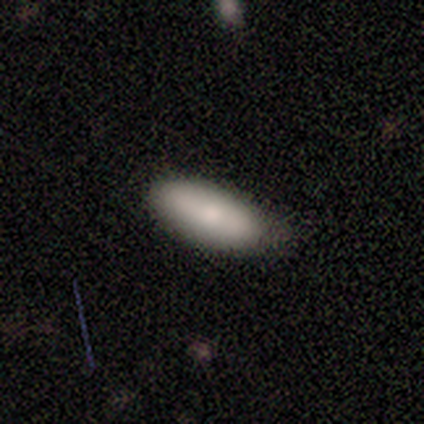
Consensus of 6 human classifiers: smooth 100%, featured or disk 0%, star or artifact 0%. Down the decision tree: how rounded — in between (83%); merging — none (67%).